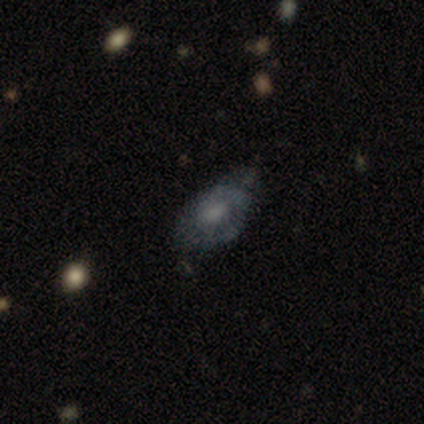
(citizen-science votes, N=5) Overall: featured or disk (100%). Edge-on disk: no (100%). Bar: no (100%). Spiral arms: no (60%; yes 40%). Bulge size: none (60%; moderate 20%). Merging: none (60%; minor disturbance 40%).